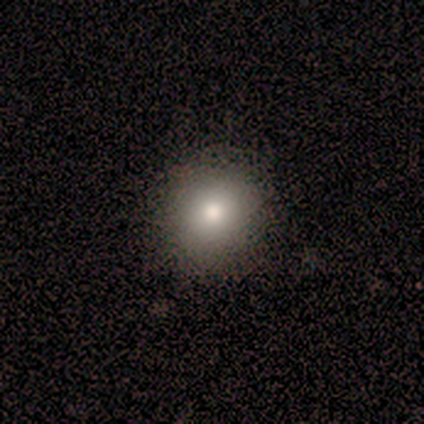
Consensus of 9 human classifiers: smooth_or_featured: smooth (p=1.00)
how_rounded: round (p=0.67) [alt: in between p=0.33]
merging: none (p=1.00)